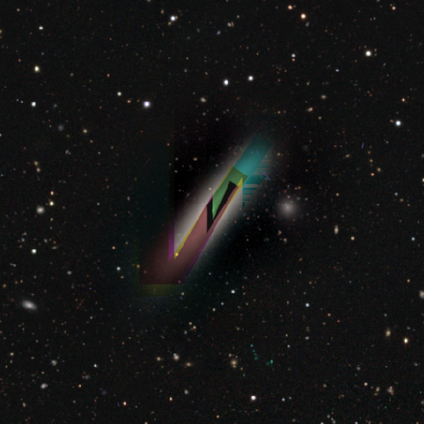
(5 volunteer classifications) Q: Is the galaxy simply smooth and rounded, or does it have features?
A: star or artifact — 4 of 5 (80%).